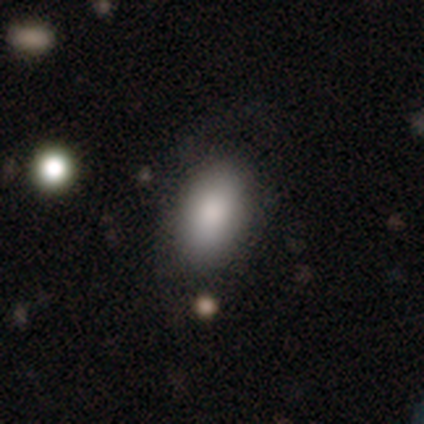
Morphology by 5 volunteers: smooth_or_featured: smooth (p=1.00)
how_rounded: in between (p=1.00)
merging: none (p=0.80) [alt: minor disturbance p=0.20]